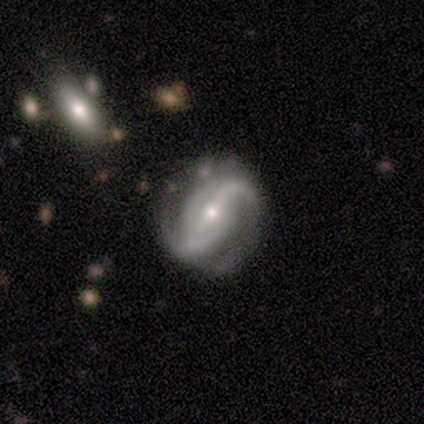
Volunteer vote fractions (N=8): Overall: featured or disk (88%). Edge-on disk: no (100%). Bar: strong (43%; weak 29%). Spiral arms: yes (100%). Spiral arm count: 2 (57%; 3 29%). Spiral winding: medium (43%, tied with loose). Bulge size: small (71%). Merging: none (88%).